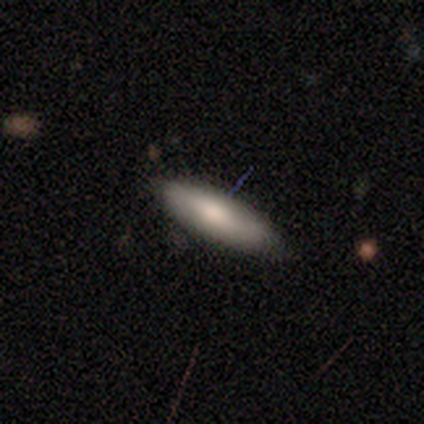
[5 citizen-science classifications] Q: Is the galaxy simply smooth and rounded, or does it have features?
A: smooth — 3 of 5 (60%).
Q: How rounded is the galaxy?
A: in between — 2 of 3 (67%).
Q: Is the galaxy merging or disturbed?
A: none — 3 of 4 (75%).